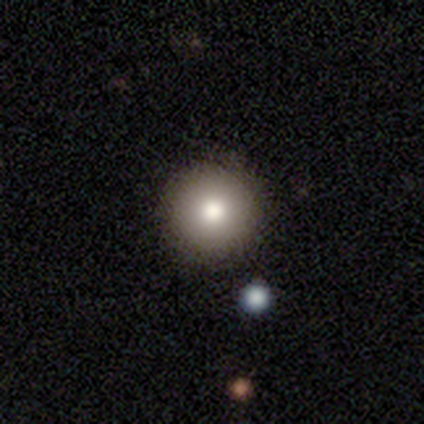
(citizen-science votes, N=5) Consensus on every question: smooth or featured — smooth (100%); how rounded — round (100%); merging — none (100%).